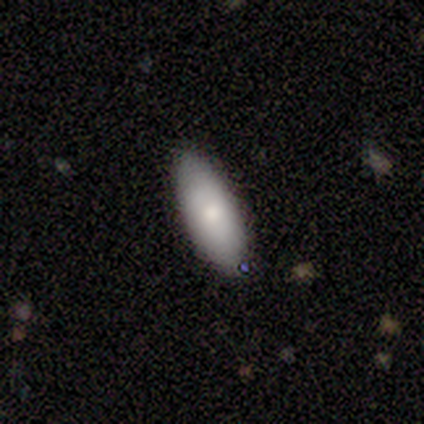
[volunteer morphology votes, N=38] Smooth or featured?
  - smooth: 76% *
  - featured or disk: 24%
  - star or artifact: 0%
How rounded?
  - in between: 76% *
  - cigar-shaped: 24%
  - round: 0%
Merging?
  - none: 84% *
  - minor disturbance: 16%
  - major disturbance: 0%
  - merger: 0%